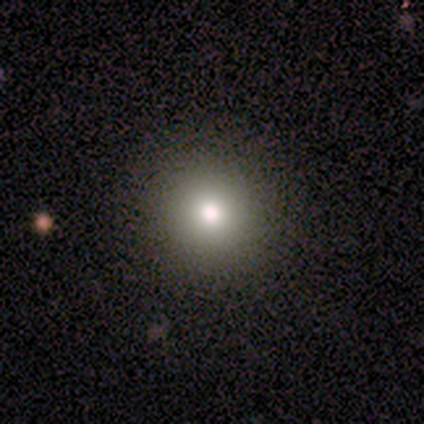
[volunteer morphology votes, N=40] Smooth or featured? smooth (80%)
How rounded? round (97%)
Merging? none (97%)